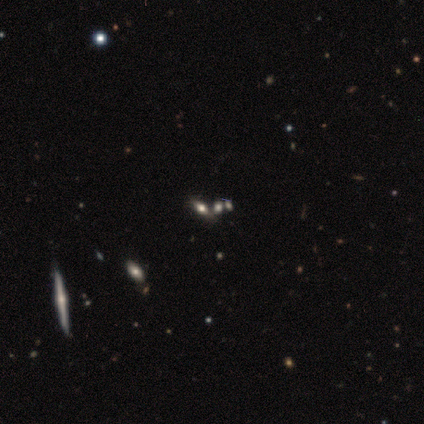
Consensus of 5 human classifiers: This appears to be a featured or disk galaxy (40%, tied with star or artifact) viewed edge-on (100%) with a rounded central bulge (100%). Merging: none (33%, tied with major disturbance and merger).